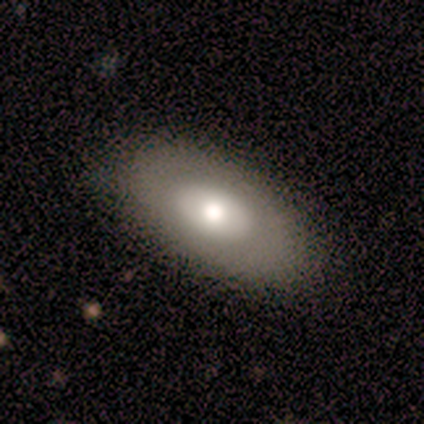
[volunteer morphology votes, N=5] smooth 40% (tied), featured or disk 40% (tied), star or artifact 20%. Down the decision tree: how rounded — in between (100%); merging — none (100%).